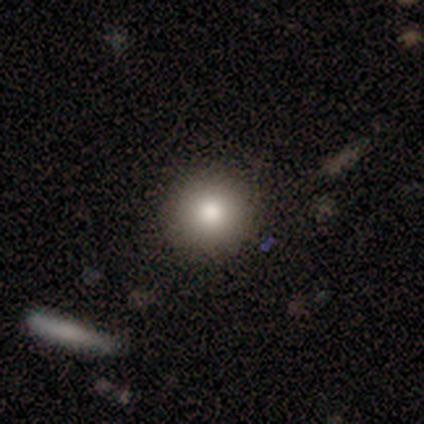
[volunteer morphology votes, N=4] Smooth or featured: smooth — 100%
How rounded: round — 50% (tied with in between — 50%)
Merging: none — 75% (minor disturbance — 25%)